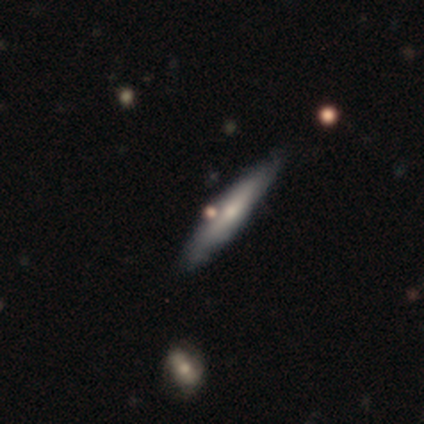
This appears to be a smooth galaxy with no disk features (60%) that is cigar-shaped (100%). Merging: minor disturbance (60%).